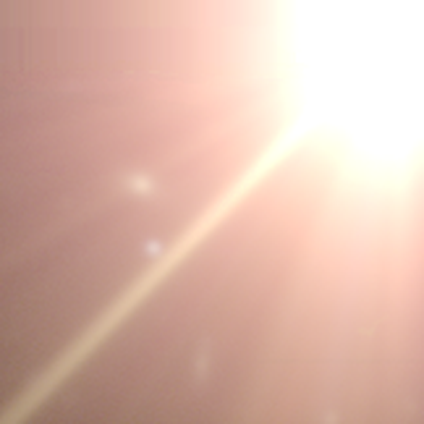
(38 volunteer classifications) smooth-or-featured: star or artifact: 92% | smooth: 5% | featured or disk: 3%